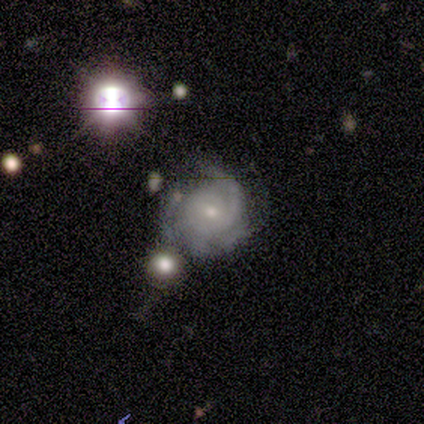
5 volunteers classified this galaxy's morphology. Overall: featured or disk (80%). Edge-on disk: no (100%). Bar: no (100%). Spiral arms: yes (100%). Spiral arm count: can't tell (50%; 3 25%). Spiral winding: tight (50%, tied with medium). Bulge size: small (75%). Merging: none (50%, tied with minor disturbance).